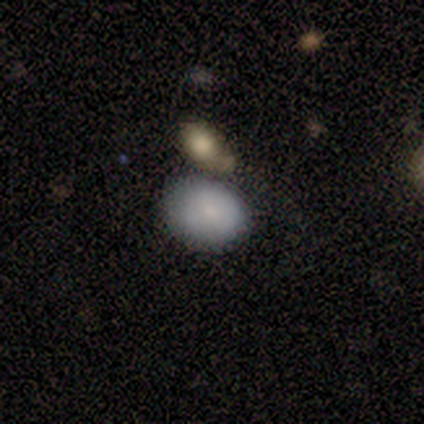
This is likely a featured or disk galaxy (60%). It is clearly not viewed edge-on (100%). Bar: likely no (67%). Spiral arm pattern: likely no (67%). Central bulge: likely small (67%). Merging: clearly none (80%).